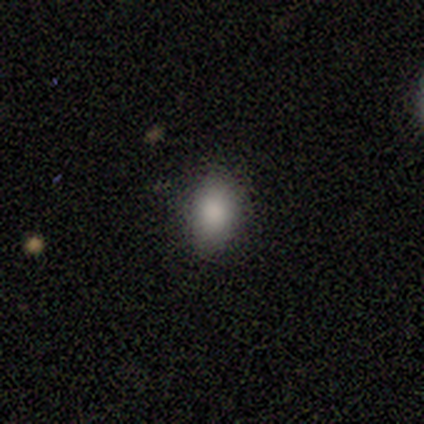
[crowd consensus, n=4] A smooth galaxy with no disk features (100%) that is in between round and cigar-shaped (100%). Merging: none (50%, tied with minor disturbance).